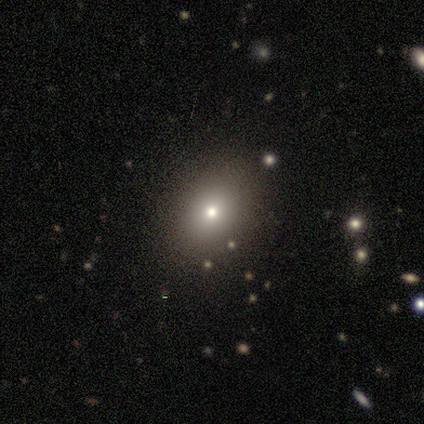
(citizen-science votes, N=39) Smooth or featured? smooth (49%)
How rounded? in between (63%)
Merging? none (86%)